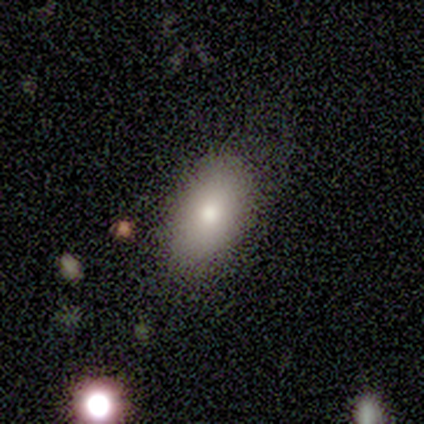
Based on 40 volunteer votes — Overall: smooth (75%). How rounded: in between (97%). Merging: none (89%).